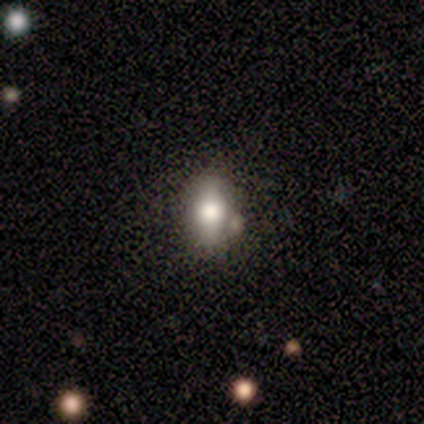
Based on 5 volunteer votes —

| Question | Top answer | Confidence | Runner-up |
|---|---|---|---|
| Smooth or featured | smooth | 40% | tied: featured or disk (40%) |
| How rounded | in between | 100% | — |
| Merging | none | 50% | minor disturbance (25%) |